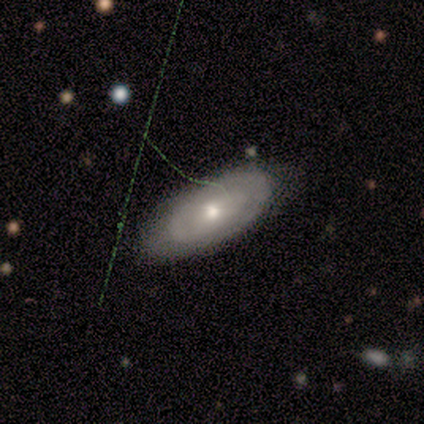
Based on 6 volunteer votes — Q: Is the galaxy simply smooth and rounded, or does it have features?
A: featured or disk — 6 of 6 (100%).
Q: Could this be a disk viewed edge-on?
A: no — 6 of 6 (100%).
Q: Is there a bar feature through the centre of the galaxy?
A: no — 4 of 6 (67%).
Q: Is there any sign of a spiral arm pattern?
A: yes — 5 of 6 (83%).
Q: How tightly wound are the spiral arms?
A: tight — 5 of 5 (100%).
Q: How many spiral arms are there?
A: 2 — 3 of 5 (60%).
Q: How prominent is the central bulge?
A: moderate — 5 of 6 (83%).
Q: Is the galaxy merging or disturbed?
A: none — 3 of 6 (50%, tied with minor disturbance).